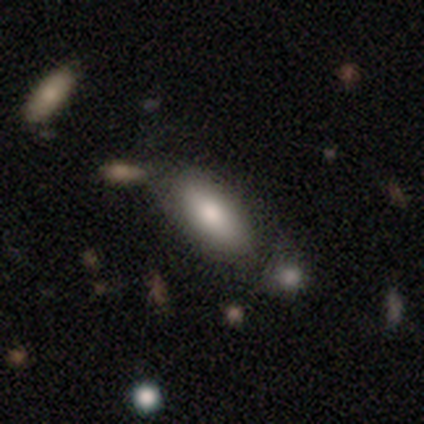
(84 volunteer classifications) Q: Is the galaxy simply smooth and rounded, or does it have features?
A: smooth — 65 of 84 (77%).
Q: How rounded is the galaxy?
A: in between — 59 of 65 (91%).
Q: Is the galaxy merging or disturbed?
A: none — 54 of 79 (68%).